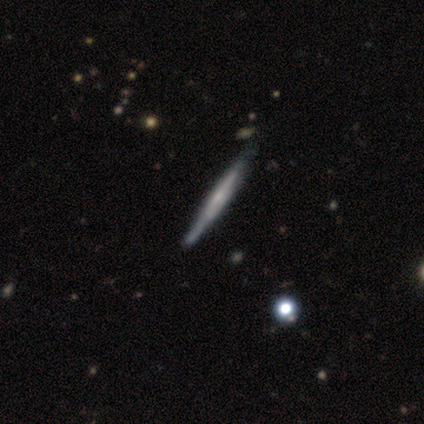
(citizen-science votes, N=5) Smooth or featured: featured or disk — 80% (smooth — 20%)
Edge-on disk: yes — 100%
Edge-on bulge: rounded — 75% (none — 25%)
Merging: none — 80% (minor disturbance — 20%)